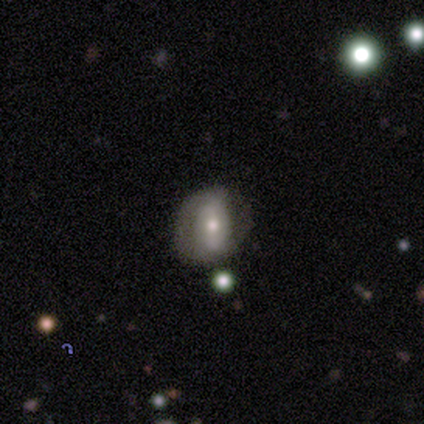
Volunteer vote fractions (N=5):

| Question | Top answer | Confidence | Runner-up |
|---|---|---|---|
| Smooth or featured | smooth | 80% | featured or disk (20%) |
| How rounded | in between | 75% | round (25%) |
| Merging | none | 60% | minor disturbance (20%) |